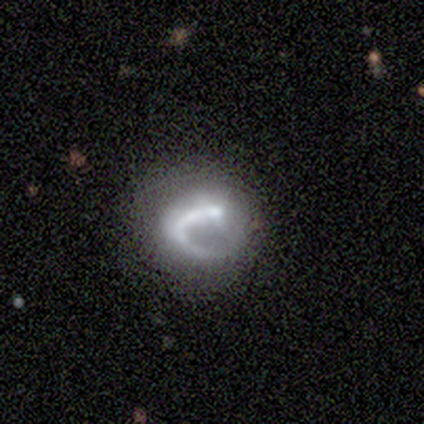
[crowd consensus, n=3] Volunteers were most divided on "smooth or featured": smooth: 67%, featured or disk: 33%, star or artifact: 0%. More confident: how rounded — in between (100%); merging — minor disturbance (67%).